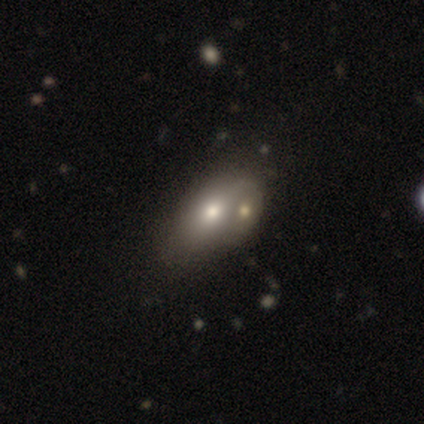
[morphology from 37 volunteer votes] Volunteers were most divided on "merging": none: 55%, merger: 32%, minor disturbance: 13%, major disturbance: 0%. More confident: how rounded — in between (85%); smooth or featured — smooth (73%).